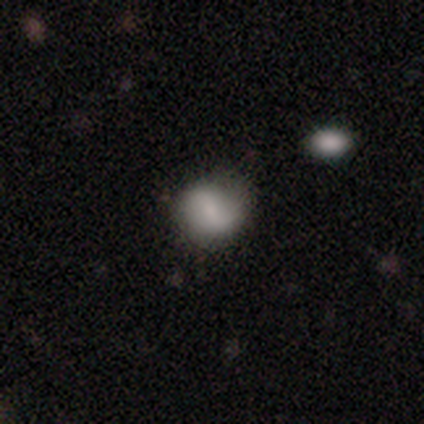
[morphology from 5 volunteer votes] Overall: smooth (80%). How rounded: round (75%). Merging: none (60%; minor disturbance 20%).